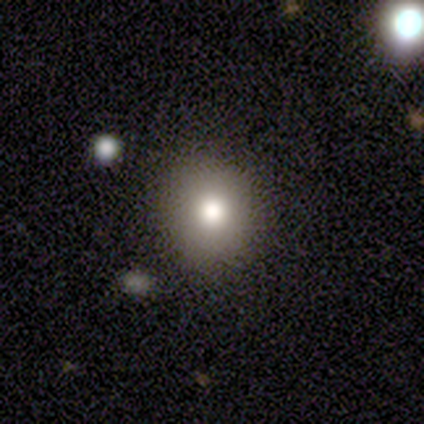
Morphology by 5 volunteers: Overall: featured or disk (60%; smooth 40%). Edge-on disk: no (67%; yes 33%). Bar: no (100%). Spiral arms: no (100%). Bulge size: large (50%, tied with moderate). Merging: none (80%).